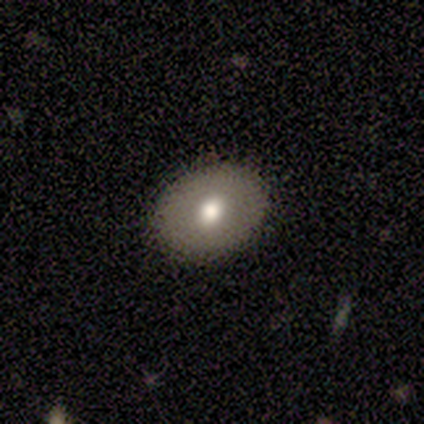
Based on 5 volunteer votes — smooth-or-featured: smooth: 60% | featured or disk: 20% | star or artifact: 20%
  how-rounded: in between: 67% | round: 33% | cigar-shaped: 0%
  merging: none: 100% | minor disturbance: 0% | major disturbance: 0% | merger: 0%